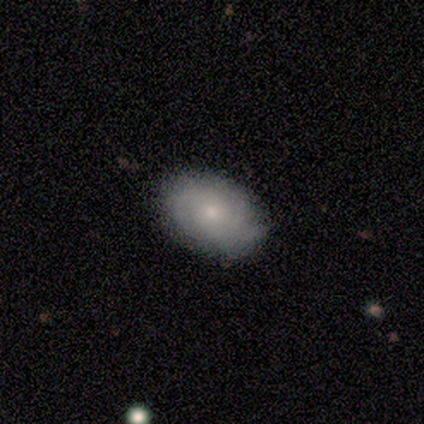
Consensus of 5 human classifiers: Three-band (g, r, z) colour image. It shows a featured or disk galaxy (80%) with no bar (75%), 3 (75%) tight (50%, tied with medium) spiral arms (100%) and a moderate central bulge (50%, tied with small). Merging: minor disturbance (60%).